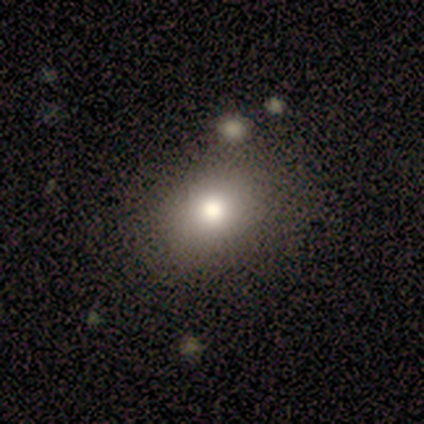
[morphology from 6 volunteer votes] Overall: smooth (50%, tied with featured or disk). How rounded: in between (67%; round 33%). Merging: none (100%).